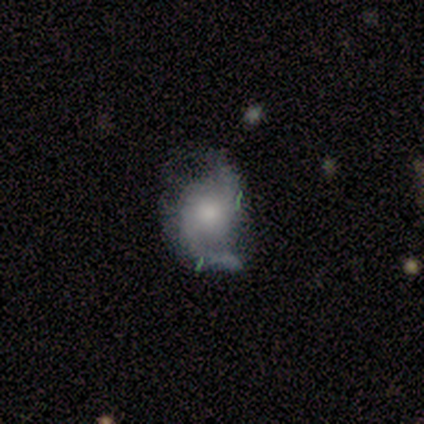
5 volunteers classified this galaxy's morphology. This is likely a featured or disk galaxy (60%). It is clearly not viewed edge-on (100%). Bar: clearly no (100%). Spiral arm pattern: likely yes (67%). Spiral arm count: clearly 2 (100%). Spiral winding: possibly medium (50%, tied with loose). Central bulge: marginally moderate (33%, tied with small and none). Merging: marginally none (40%, tied with minor disturbance).